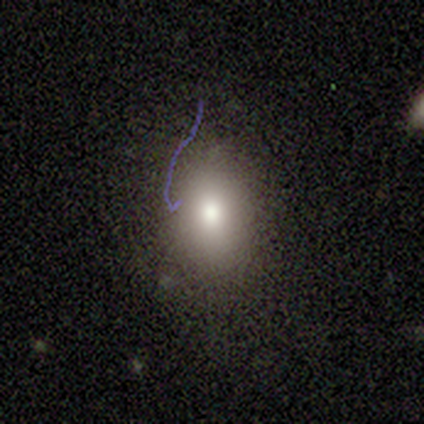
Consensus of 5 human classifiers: Volunteers were most divided on "how rounded": in between: 75%, round: 25%, cigar-shaped: 0%. More confident: merging — none (100%); smooth or featured — smooth (80%).